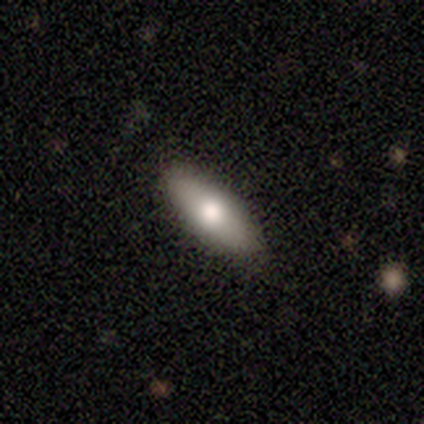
smooth-or-featured: smooth: 80% | featured or disk: 20% | star or artifact: 0%
  how-rounded: in between: 100% | round: 0% | cigar-shaped: 0%
  merging: none: 100% | minor disturbance: 0% | major disturbance: 0% | merger: 0%